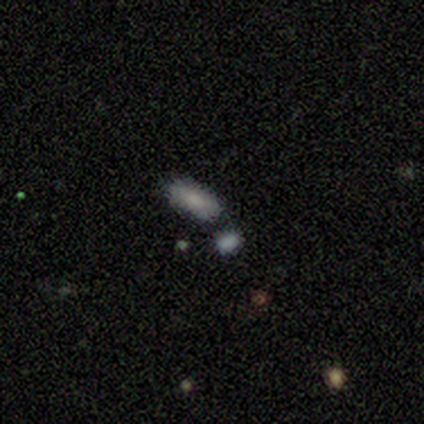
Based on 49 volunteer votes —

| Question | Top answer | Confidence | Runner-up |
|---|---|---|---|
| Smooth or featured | smooth | 76% | featured or disk (16%) |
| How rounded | in between | 89% | cigar-shaped (11%) |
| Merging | none | 64% | merger (20%) |